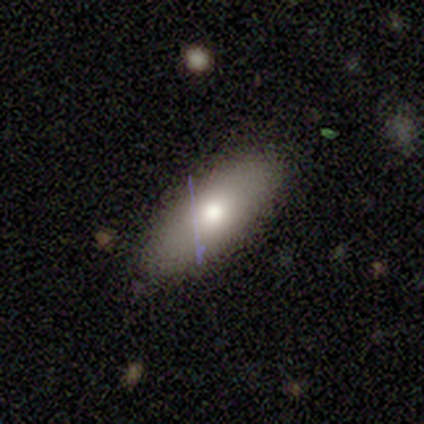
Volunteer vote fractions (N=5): smooth_or_featured: smooth (p=0.80) [alt: featured or disk p=0.20]
how_rounded: in between (p=1.00)
merging: none (p=0.60) [alt: minor disturbance p=0.40]